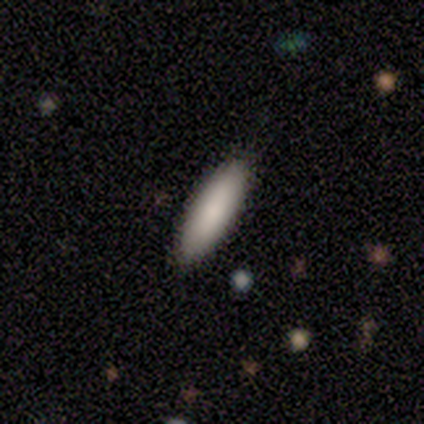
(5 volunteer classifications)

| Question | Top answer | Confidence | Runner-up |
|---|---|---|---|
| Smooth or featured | smooth | 100% | — |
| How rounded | in between | 80% | cigar-shaped (20%) |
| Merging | none | 100% | — |